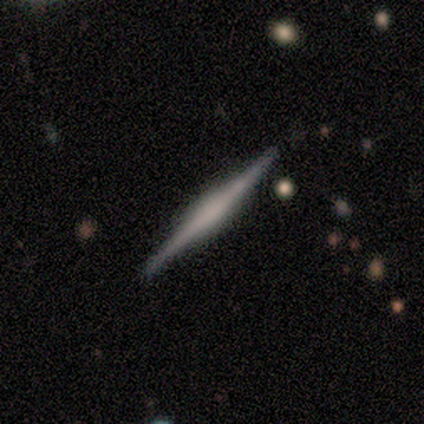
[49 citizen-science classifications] Smooth or featured: featured or disk — 76% (smooth — 20%)
Edge-on disk: yes — 100%
Edge-on bulge: none — 41% (rounded — 35%)
Merging: none — 85% (minor disturbance — 11%)